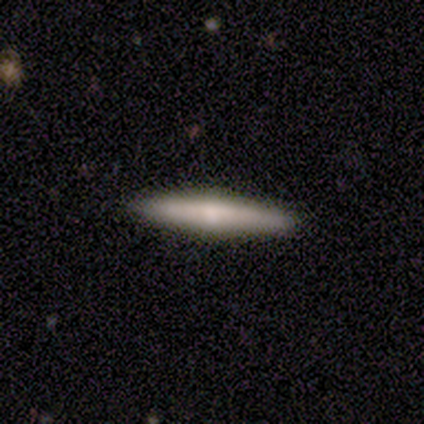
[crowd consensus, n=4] Smooth or featured? 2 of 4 (50%, tied with featured or disk) said smooth. How rounded? 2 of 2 (100%) said cigar-shaped. Merging? 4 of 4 (100%) said none.